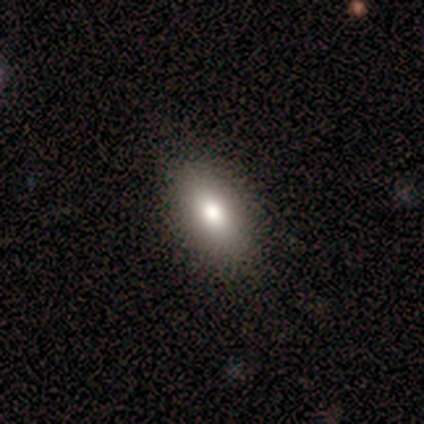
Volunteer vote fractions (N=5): This appears to be a smooth galaxy with no disk features (100%) that is in between round and cigar-shaped (80%). Merging: none (100%).